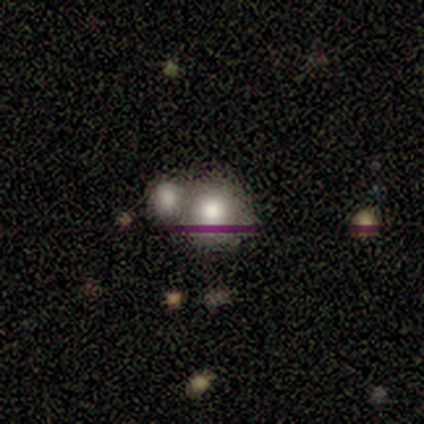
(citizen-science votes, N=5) smooth_or_featured: smooth (p=0.60) [alt: featured or disk p=0.20]
how_rounded: round (p=1.00)
merging: merger (p=0.75) [alt: minor disturbance p=0.25]